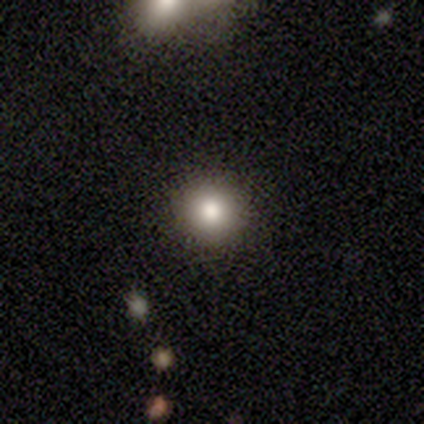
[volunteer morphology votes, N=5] A smooth galaxy with no disk features (80%) that is round (100%).

Vote fractions:
- Smooth or featured? smooth: 80% / star or artifact: 20% / featured or disk: 0%
- How rounded? round: 100% / in between: 0% / cigar-shaped: 0%
- Merging? none: 100% / minor disturbance: 0% / major disturbance: 0% / merger: 0%